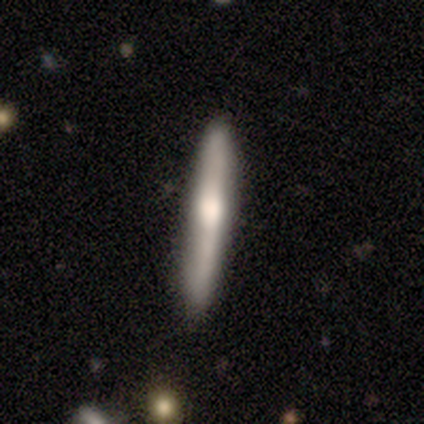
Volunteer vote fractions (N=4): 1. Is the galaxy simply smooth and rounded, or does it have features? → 100% smooth, 0% featured or disk, 0% star or artifact.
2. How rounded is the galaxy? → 100% cigar-shaped, 0% round, 0% in between.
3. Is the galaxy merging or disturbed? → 100% none, 0% minor disturbance, 0% major disturbance, 0% merger.